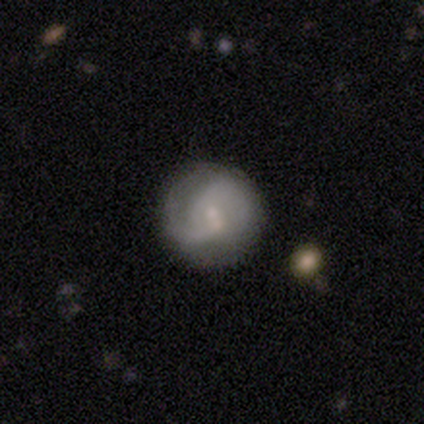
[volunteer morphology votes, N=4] A featured or disk galaxy (100%) with a weak bar (100%), 2 (67%) tight (33%, tied with medium and loose) spiral arms (75%) and a moderate central bulge (50%, tied with small).

Vote fractions:
- Smooth or featured? featured or disk: 100% / smooth: 0% / star or artifact: 0%
- Edge-on disk? no: 100% / yes: 0%
- Bar? weak: 100% / strong: 0% / no: 0%
- Spiral arms? yes: 75% / no: 25%
- Spiral winding? tight: 33% (tied) / medium: 33% (tied) / loose: 33% (tied)
- Spiral arm count? 2: 67% / can't tell: 33% / 1: 0% / 3: 0% / 4: 0% / more than 4: 0%
- Bulge size? moderate: 50% (tied) / small: 50% (tied) / dominant: 0% / large: 0% / none: 0%
- Merging? none: 50% / minor disturbance: 25% / merger: 25% / major disturbance: 0%